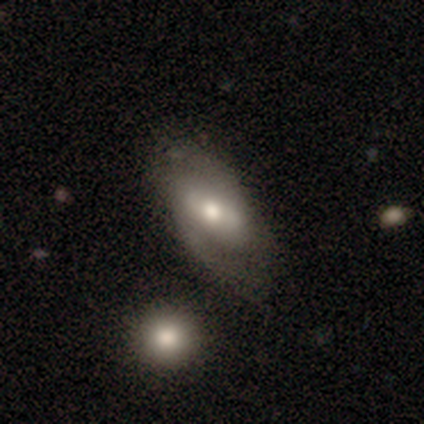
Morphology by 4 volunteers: type=featured or disk (100%); edge-on=no (75%); bar=no (67%); spiral arms=yes (100%); winding=medium (67%); arm count=2 (67%); bulge=moderate (100%); merging=none (100%).